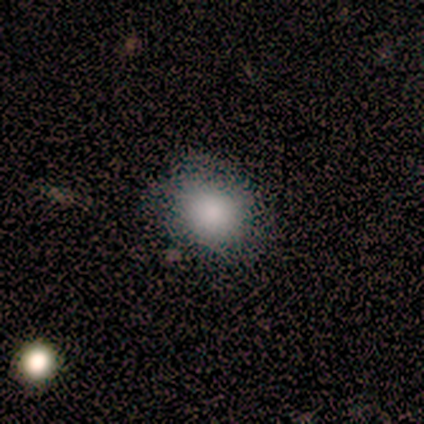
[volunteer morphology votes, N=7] Smooth or featured? smooth (71%)
How rounded? round (80%)
Merging? none (100%)